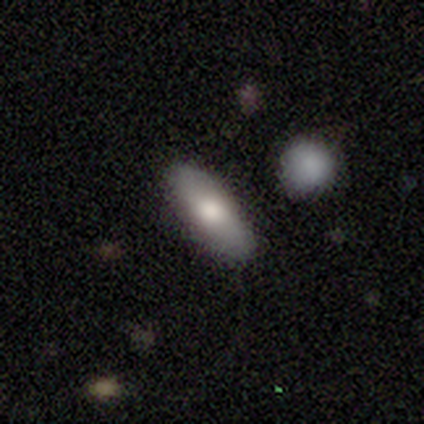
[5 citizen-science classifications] Smooth or featured? smooth (60%)
How rounded? in between (100%)
Merging? none (100%)